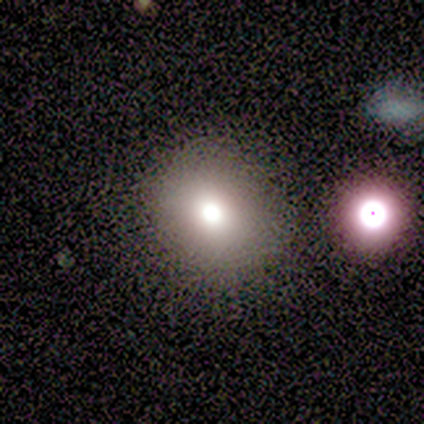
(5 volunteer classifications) Smooth or featured: smooth — 80% (featured or disk — 20%)
How rounded: round — 75% (in between — 25%)
Merging: none — 80% (minor disturbance — 20%)